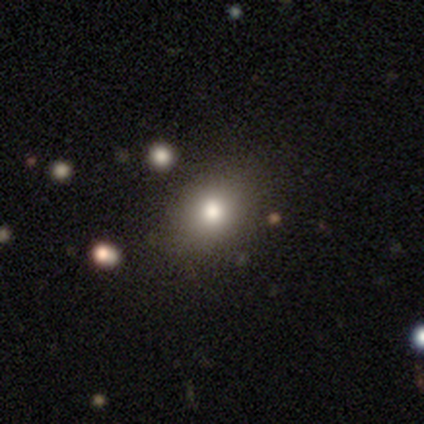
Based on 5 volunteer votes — A smooth galaxy with no disk features (100%) that is round (60%). Merging: none (80%).